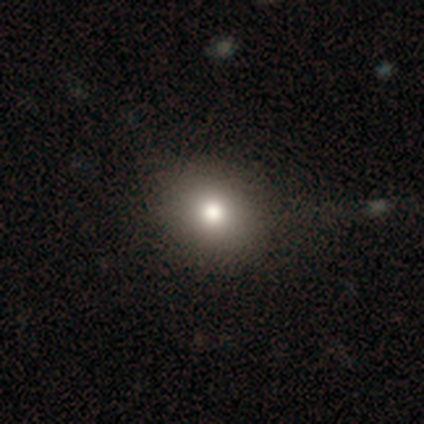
A smooth galaxy with no disk features (72%) that is round (72%).

Vote fractions:
- Smooth or featured? smooth: 72% / star or artifact: 20% / featured or disk: 8%
- How rounded? round: 72% / in between: 28% / cigar-shaped: 0%
- Merging? none: 56% / minor disturbance: 12% / merger: 6% / major disturbance: 3%